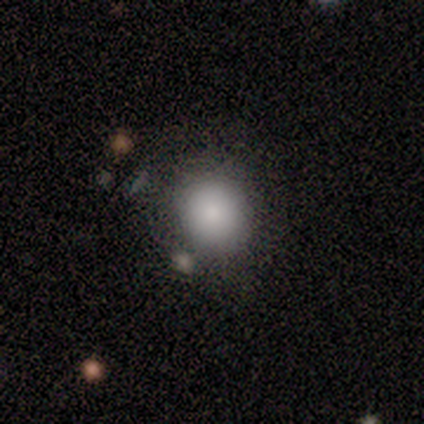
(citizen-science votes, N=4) Overall: smooth (100%). How rounded: round (100%). Merging: none (100%).